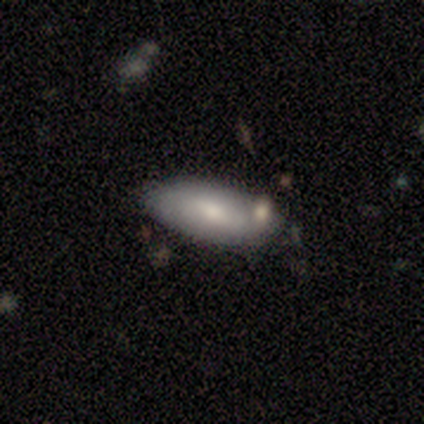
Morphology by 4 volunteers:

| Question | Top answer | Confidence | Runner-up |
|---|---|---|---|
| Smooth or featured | smooth | 50% | tied: featured or disk (50%) |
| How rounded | in between | 100% | — |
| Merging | none | 75% | major disturbance (25%) |